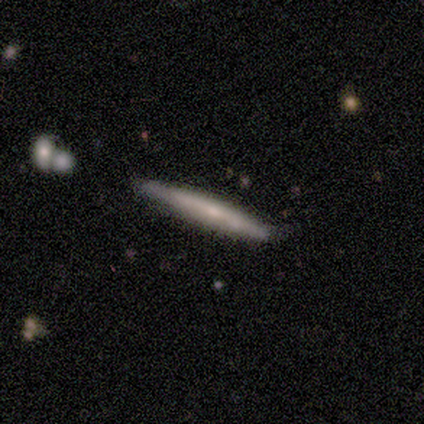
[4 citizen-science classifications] A smooth galaxy with no disk features (50%) that is cigar-shaped (100%).

Vote fractions:
- Smooth or featured? smooth: 50% / featured or disk: 25% / star or artifact: 25%
- How rounded? cigar-shaped: 100% / round: 0% / in between: 0%
- Merging? none: 100% / minor disturbance: 0% / major disturbance: 0% / merger: 0%